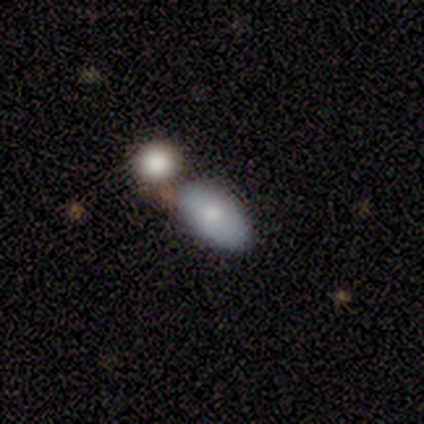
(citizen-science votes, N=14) A smooth galaxy with no disk features (93%) that is in between round and cigar-shaped (100%). Merging: none (64%).